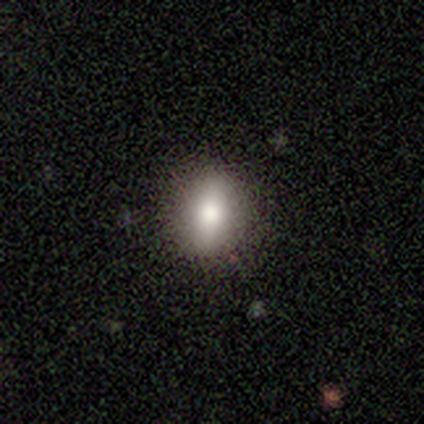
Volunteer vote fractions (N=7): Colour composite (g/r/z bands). It shows a smooth galaxy with no disk features (71%) that is in between round and cigar-shaped (60%). Merging: none (57%).